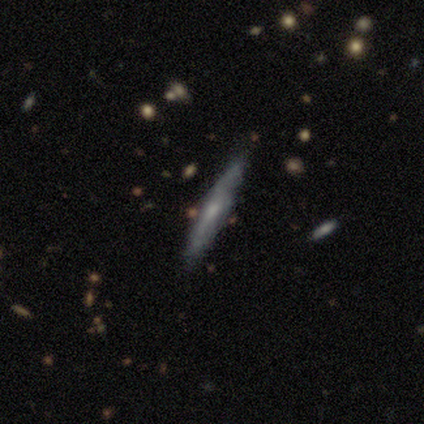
Smooth or featured? 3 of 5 (60%) said smooth. How rounded? 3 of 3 (100%) said cigar-shaped. Merging? 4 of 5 (80%) said none.